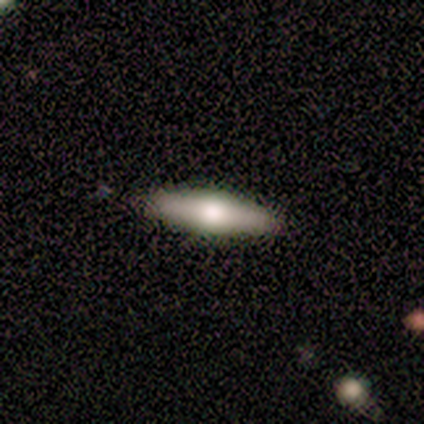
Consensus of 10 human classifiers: Smooth or featured?
  - featured or disk: 60% *
  - smooth: 40%
  - star or artifact: 0%
Edge-on disk?
  - yes: 83% *
  - no: 17%
Edge-on bulge?
  - rounded: 100% *
  - boxy: 0%
  - none: 0%
Merging?
  - none: 90% *
  - merger: 10%
  - minor disturbance: 0%
  - major disturbance: 0%